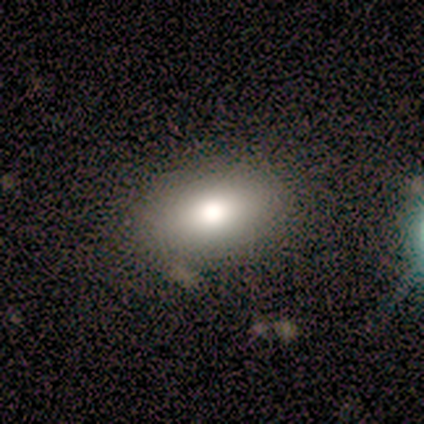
smooth-or-featured: smooth: 80% | featured or disk: 20% | star or artifact: 0%
  how-rounded: in between: 100% | round: 0% | cigar-shaped: 0%
  merging: none: 100% | minor disturbance: 0% | major disturbance: 0% | merger: 0%